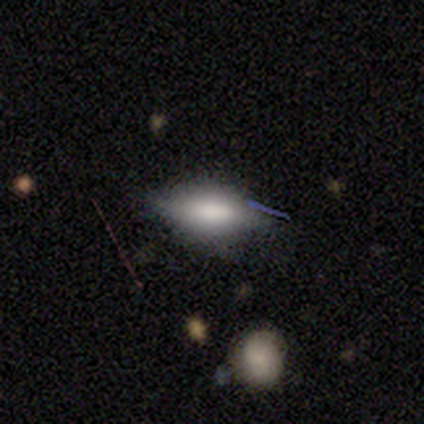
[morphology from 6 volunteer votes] Smooth or featured?
  - featured or disk: 67% *
  - smooth: 33%
  - star or artifact: 0%
Edge-on disk?
  - yes: 75% *
  - no: 25%
Edge-on bulge?
  - boxy: 100% *
  - none: 0%
  - rounded: 0%
Merging?
  - none: 100% *
  - minor disturbance: 0%
  - major disturbance: 0%
  - merger: 0%